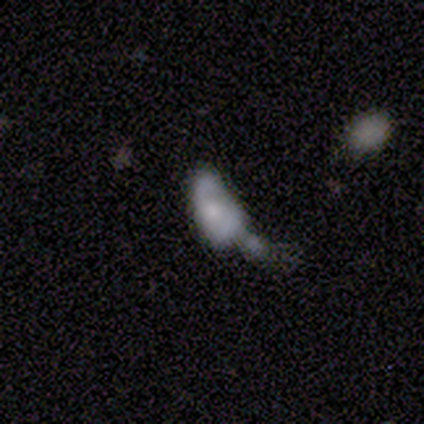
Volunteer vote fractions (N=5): A smooth galaxy with no disk features (80%) that is in between round and cigar-shaped (100%). Merging: minor disturbance (60%).